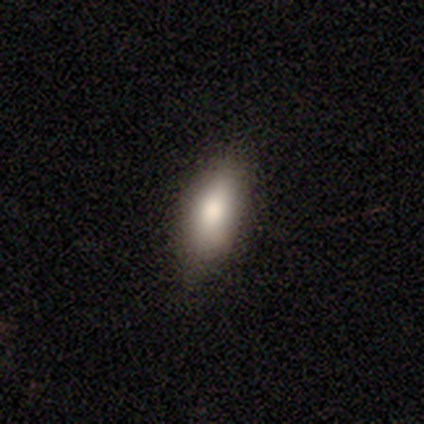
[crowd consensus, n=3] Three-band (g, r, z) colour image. It shows a smooth galaxy with no disk features (100%) that is in between round and cigar-shaped (100%). Merging: none (100%).